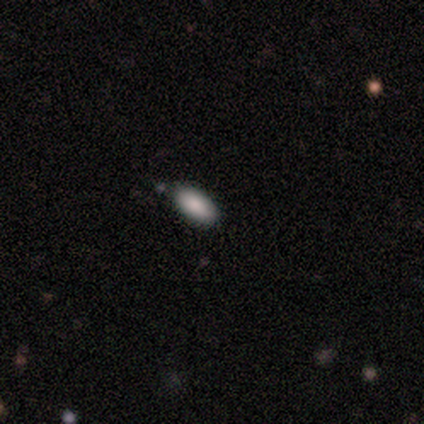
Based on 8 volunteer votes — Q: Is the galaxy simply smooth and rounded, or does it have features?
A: smooth — 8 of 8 (100%).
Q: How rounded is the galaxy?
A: in between — 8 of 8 (100%).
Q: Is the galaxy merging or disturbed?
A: none — 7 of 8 (88%).